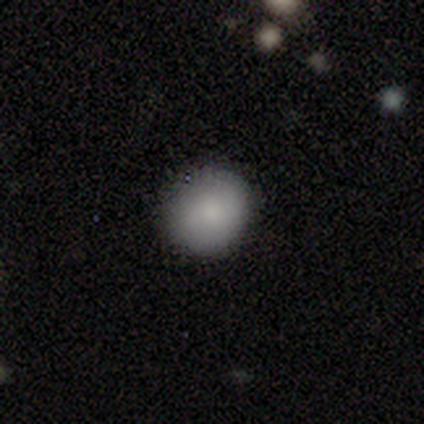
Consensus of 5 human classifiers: Morphology: type=smooth (100%); roundness=round (100%); merging=none (100%).